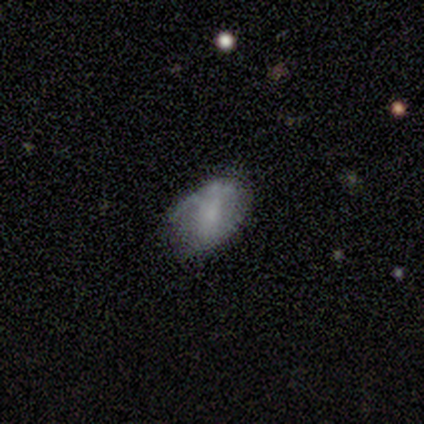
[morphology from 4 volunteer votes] smooth-or-featured: smooth: 75% | featured or disk: 25% | star or artifact: 0%
  how-rounded: in between: 67% | cigar-shaped: 33% | round: 0%
  merging: none: 100% | minor disturbance: 0% | major disturbance: 0% | merger: 0%